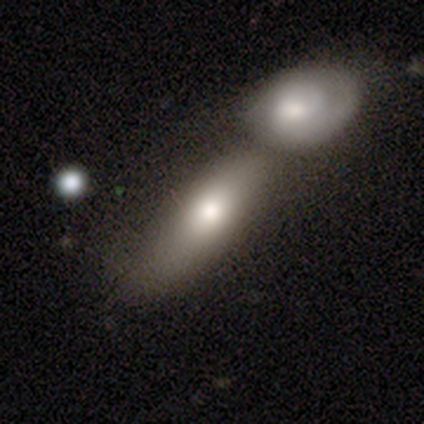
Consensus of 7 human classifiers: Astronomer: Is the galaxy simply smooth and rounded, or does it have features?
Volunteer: smooth — 71%.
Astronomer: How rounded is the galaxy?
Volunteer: in between — 80%.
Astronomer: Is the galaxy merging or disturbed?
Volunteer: merger — 57%.